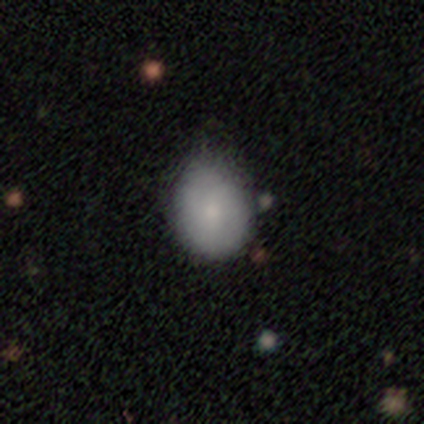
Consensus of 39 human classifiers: Smooth or featured: smooth — 82% (featured or disk — 13%)
How rounded: in between — 53% (round — 47%)
Merging: none — 51% (minor disturbance — 49%)